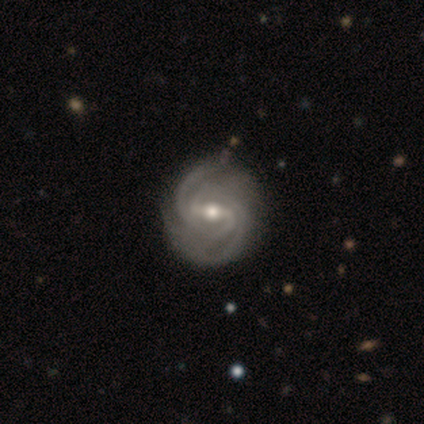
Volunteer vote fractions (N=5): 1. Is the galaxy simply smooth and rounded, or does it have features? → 80% featured or disk, 20% star or artifact, 0% smooth.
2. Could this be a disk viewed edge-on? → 100% no, 0% yes.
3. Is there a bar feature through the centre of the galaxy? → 75% weak, 25% strong, 0% no.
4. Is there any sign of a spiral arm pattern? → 100% yes, 0% no.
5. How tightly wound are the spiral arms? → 75% tight, 25% medium, 0% loose.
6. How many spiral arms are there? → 75% 2, 25% 4, 0% 1, 0% 3, 0% more than 4, 0% can't tell.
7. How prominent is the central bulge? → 50% moderate (tied), 50% small (tied), 0% dominant, 0% large, 0% none.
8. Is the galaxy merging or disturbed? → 50% none (tied), 50% minor disturbance (tied), 0% major disturbance, 0% merger.